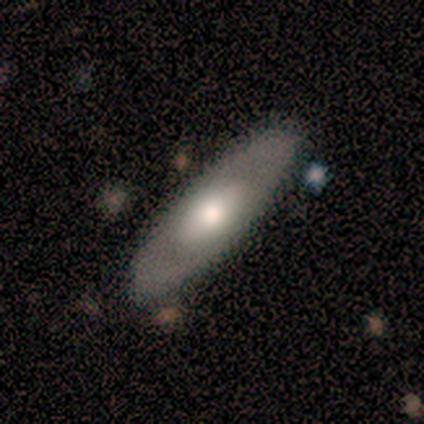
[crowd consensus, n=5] Morphology: type=smooth (60%); roundness=in between (67%); merging=none (80%).